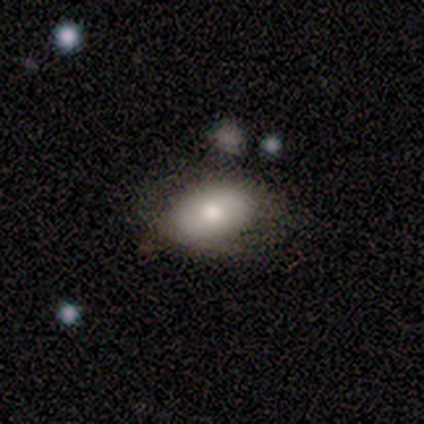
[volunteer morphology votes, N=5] smooth 80%, featured or disk 20%, star or artifact 0%. Down the decision tree: how rounded — in between (75%); merging — none (100%).